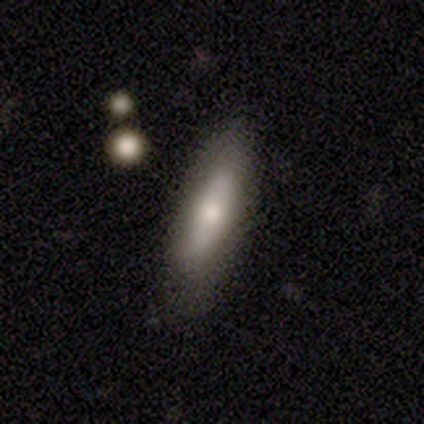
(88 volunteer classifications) Smooth or featured? smooth (65%)
How rounded? cigar-shaped (63%)
Merging? none (81%)